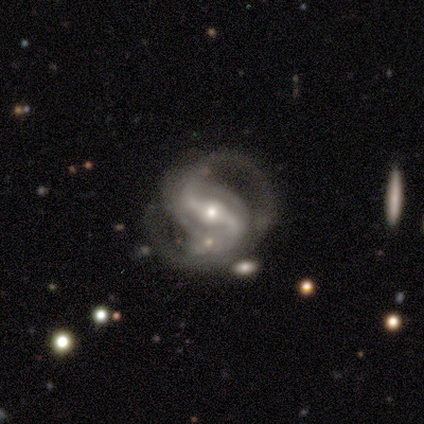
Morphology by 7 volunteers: A featured or disk galaxy (100%) with a strong bar (71%), 2 (100%) tight (67%) spiral arms (86%) and a moderate central bulge (57%). Merging: none (71%).